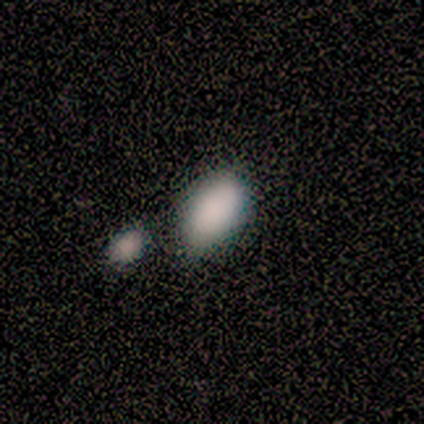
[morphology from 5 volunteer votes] Overall: smooth (80%). How rounded: in between (100%). Merging: minor disturbance (75%).